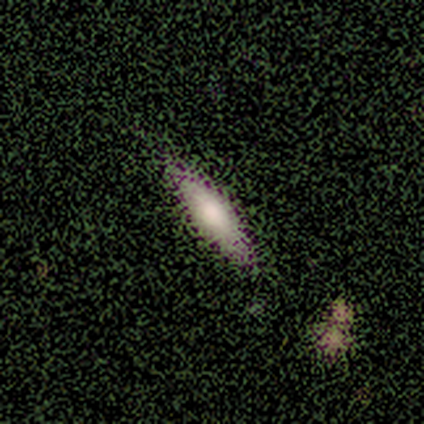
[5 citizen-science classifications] featured or disk 60%, smooth 40%, star or artifact 0%. Down the decision tree: edge-on disk — yes (67%); edge-on bulge — none (50%, tied with rounded); merging — none (80%).